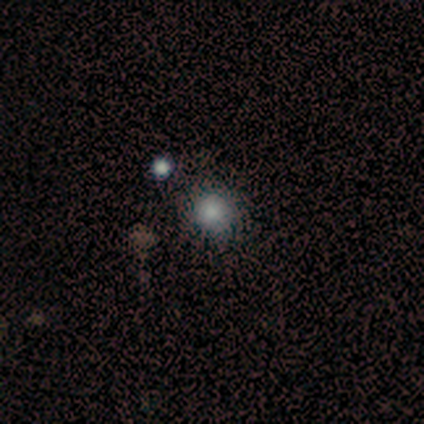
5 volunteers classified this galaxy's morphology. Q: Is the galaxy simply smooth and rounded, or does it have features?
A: smooth — 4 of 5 (80%).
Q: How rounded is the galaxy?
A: round — 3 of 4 (75%).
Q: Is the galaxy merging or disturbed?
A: none — 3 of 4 (75%).